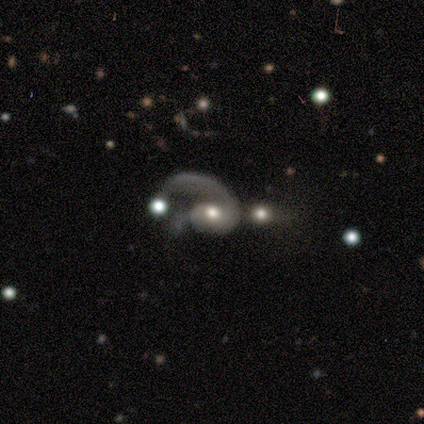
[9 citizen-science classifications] This appears to be a featured or disk galaxy (100%) with no bar (89%), 1 (88%) tight (38%, tied with loose) spiral arms (89%) and a moderate central bulge (67%). Merging: merger (56%).